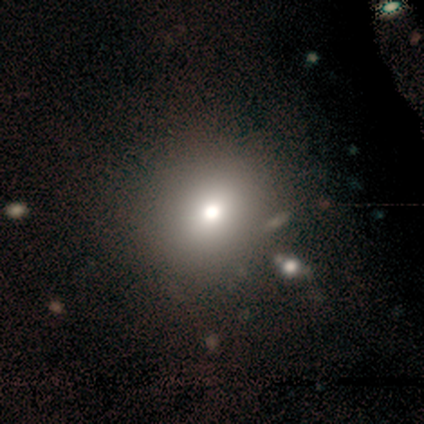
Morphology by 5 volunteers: Smooth or featured? 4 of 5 (80%) said smooth. How rounded? 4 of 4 (100%) said round. Merging? 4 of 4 (100%) said none.